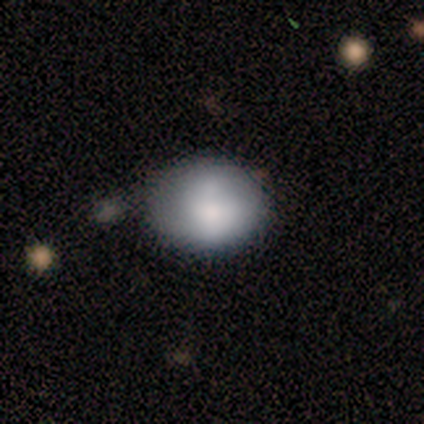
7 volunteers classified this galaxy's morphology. Smooth or featured?
  - smooth: 71% *
  - featured or disk: 29%
  - star or artifact: 0%
How rounded?
  - in between: 60% *
  - round: 40%
  - cigar-shaped: 0%
Merging?
  - none: 86% *
  - minor disturbance: 14%
  - major disturbance: 0%
  - merger: 0%